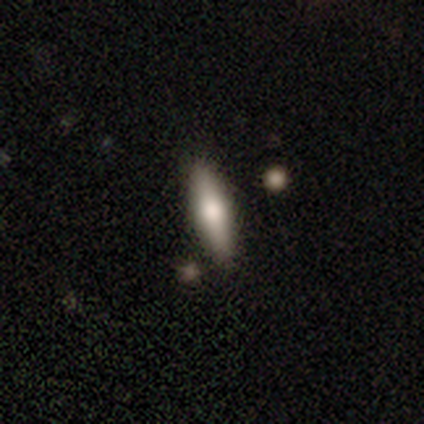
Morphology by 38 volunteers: smooth_or_featured: smooth (p=0.58) [alt: featured or disk p=0.37]
how_rounded: cigar-shaped (p=0.68) [alt: in between p=0.32]
merging: none (p=0.86) [alt: minor disturbance p=0.08]